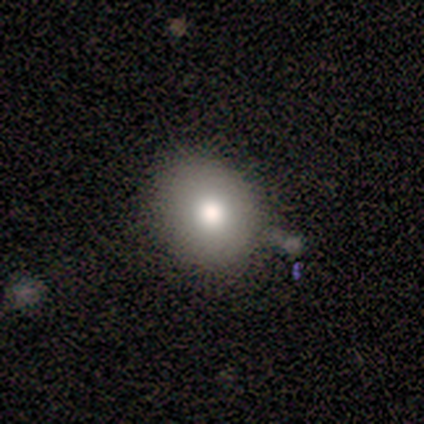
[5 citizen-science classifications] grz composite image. It shows a smooth galaxy with no disk features (80%) that is round (75%). Merging: none (100%).